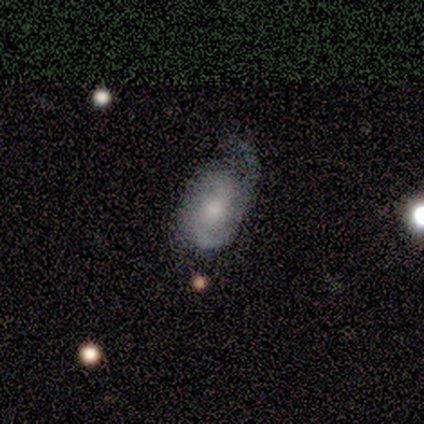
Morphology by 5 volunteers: Volunteers were most divided on "merging": major disturbance: 60%, none: 20%, minor disturbance: 20%, merger: 0%. More confident: how rounded — in between (100%); smooth or featured — smooth (80%).